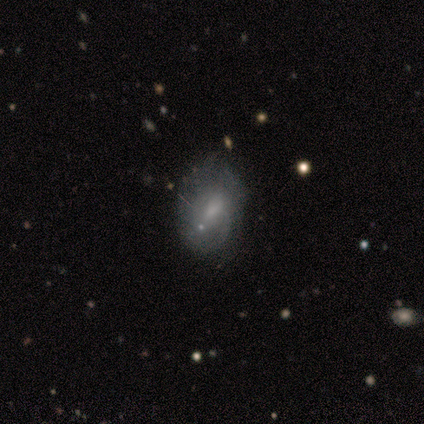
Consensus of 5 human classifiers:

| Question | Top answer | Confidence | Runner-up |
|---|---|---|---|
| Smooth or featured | featured or disk | 80% | smooth (20%) |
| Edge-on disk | no | 75% | yes (25%) |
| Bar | no | 67% | weak (33%) |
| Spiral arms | yes | 67% | no (33%) |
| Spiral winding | medium | 50% | tied: loose (50%) |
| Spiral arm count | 1 | 50% | tied: can't tell (50%) |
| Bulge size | small | 100% | — |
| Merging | minor disturbance | 60% | none (40%) |